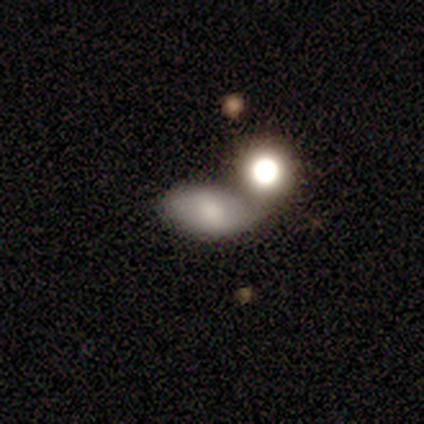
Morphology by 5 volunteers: A smooth galaxy with no disk features (60%) that is round (33%, tied with in between and cigar-shaped). Merging: none (67%).